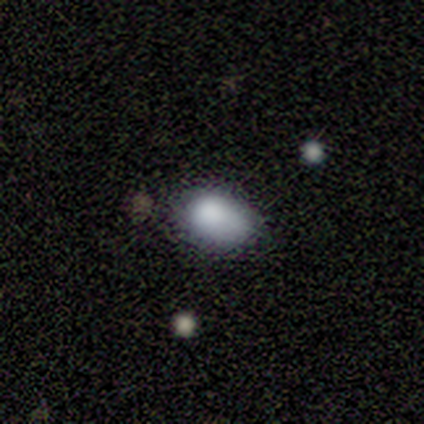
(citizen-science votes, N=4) smooth_or_featured: smooth (p=1.00)
how_rounded: in between (p=1.00)
merging: none (p=0.75) [alt: minor disturbance p=0.25]